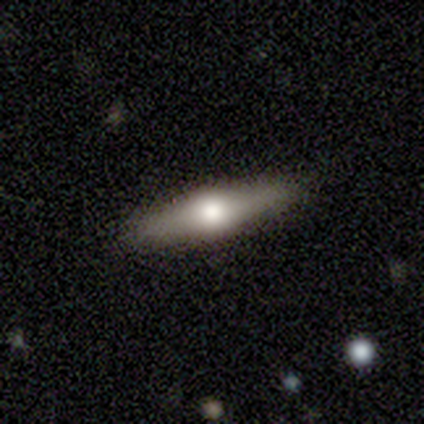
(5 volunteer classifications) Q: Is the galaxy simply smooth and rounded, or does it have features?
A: featured or disk — 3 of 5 (60%).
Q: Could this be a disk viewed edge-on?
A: yes — 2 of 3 (67%).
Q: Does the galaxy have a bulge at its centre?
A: rounded — 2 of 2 (100%).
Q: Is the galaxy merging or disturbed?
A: none — 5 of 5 (100%).